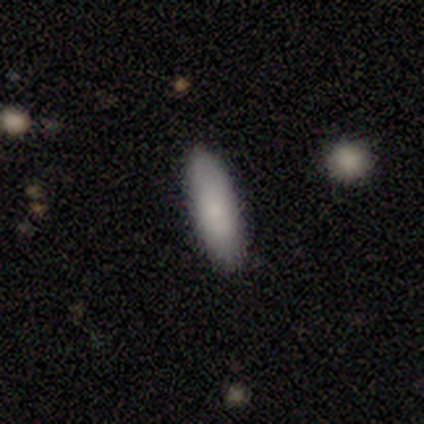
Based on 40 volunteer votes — This is likely a smooth galaxy (78%). How rounded: possibly in between (58%). Merging: clearly none (89%).